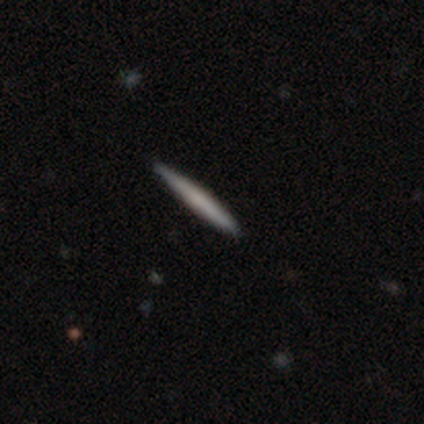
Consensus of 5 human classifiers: A smooth galaxy with no disk features (60%) that is cigar-shaped (100%).

Vote fractions:
- Smooth or featured? smooth: 60% / featured or disk: 40% / star or artifact: 0%
- How rounded? cigar-shaped: 100% / round: 0% / in between: 0%
- Merging? none: 100% / minor disturbance: 0% / major disturbance: 0% / merger: 0%